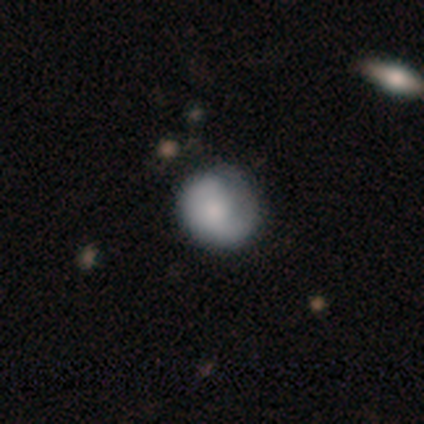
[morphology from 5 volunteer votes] Smooth or featured?
  - featured or disk: 60% *
  - smooth: 40%
  - star or artifact: 0%
Edge-on disk?
  - no: 100% *
  - yes: 0%
Bar?
  - no: 67% *
  - weak: 33%
  - strong: 0%
Spiral arms?
  - yes: 67% *
  - no: 33%
Spiral winding?
  - medium: 50% * (tied)
  - loose: 50% * (tied)
  - tight: 0%
Spiral arm count?
  - 1: 100% *
  - 2: 0%
  - 3: 0%
  - 4: 0%
  - more than 4: 0%
  - can't tell: 0%
Bulge size?
  - moderate: 33% * (tied)
  - small: 33% * (tied)
  - none: 33% * (tied)
  - dominant: 0%
  - large: 0%
Merging?
  - none: 60% *
  - minor disturbance: 40%
  - major disturbance: 0%
  - merger: 0%